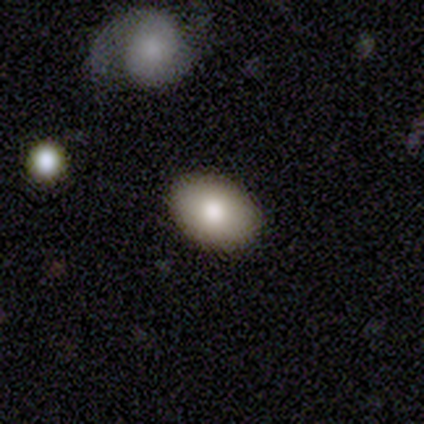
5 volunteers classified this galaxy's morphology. A smooth galaxy with no disk features (80%) that is in between round and cigar-shaped (100%). Merging: none (60%).